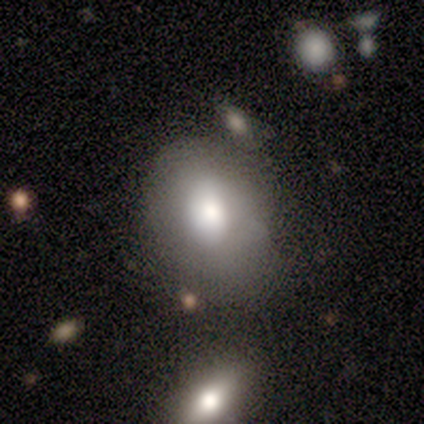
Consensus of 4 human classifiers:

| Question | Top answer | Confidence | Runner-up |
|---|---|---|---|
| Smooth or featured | smooth | 75% | featured or disk (25%) |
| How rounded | in between | 100% | — |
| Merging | minor disturbance | 50% | none (25%) |